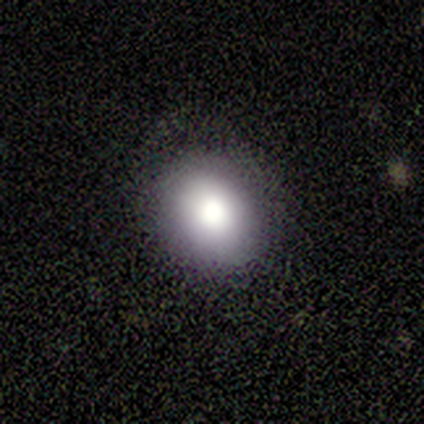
Smooth or featured? smooth (80%)
How rounded? in between (100%)
Merging? none (100%)